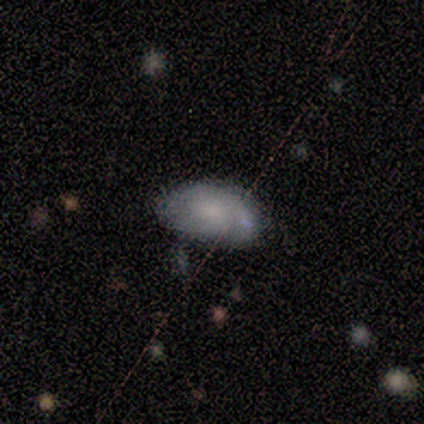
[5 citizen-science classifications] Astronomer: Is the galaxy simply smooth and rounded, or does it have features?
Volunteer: smooth — 60% (runner-up: star or artifact, 40%).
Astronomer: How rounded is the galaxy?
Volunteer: in between — 100%.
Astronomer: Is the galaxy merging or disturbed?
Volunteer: none — 67%.